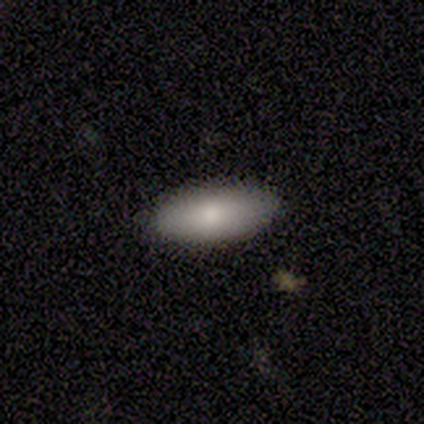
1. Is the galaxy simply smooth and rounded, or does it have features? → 60% smooth, 20% featured or disk, 20% star or artifact.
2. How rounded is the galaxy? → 67% in between, 33% cigar-shaped, 0% round.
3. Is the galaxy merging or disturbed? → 75% none, 25% minor disturbance, 0% major disturbance, 0% merger.